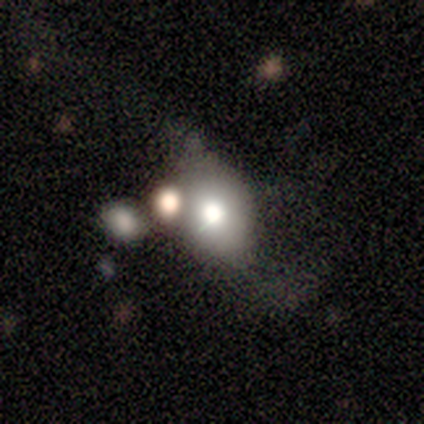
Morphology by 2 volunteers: smooth_or_featured: smooth (p=1.00)
how_rounded: round (p=1.00)
merging: none (p=0.50) [tied with: major disturbance p=0.50]